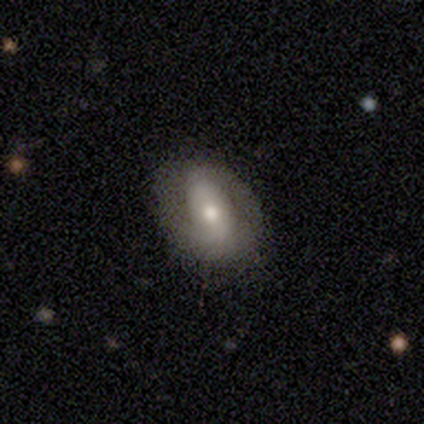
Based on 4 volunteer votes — This is likely a featured or disk galaxy (75%). It is clearly not viewed edge-on (100%). Bar: marginally strong (33%, tied with weak and no). Spiral arm pattern: likely yes (67%). Spiral arm count: clearly 2 (100%). Spiral winding: clearly medium (100%). Central bulge: clearly moderate (100%). Merging: likely none (75%).